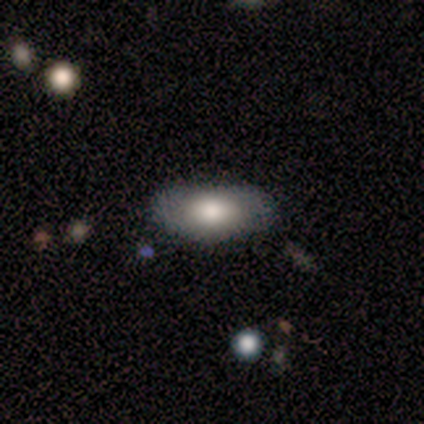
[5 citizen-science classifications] Smooth or featured? 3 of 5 (60%) said smooth. How rounded? 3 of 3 (100%) said in between. Merging? 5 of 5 (100%) said none.